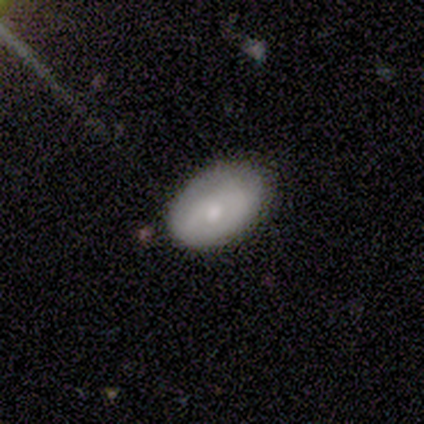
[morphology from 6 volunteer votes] A smooth galaxy with no disk features (67%) that is round (50%, tied with in between). Merging: none (33%, tied with minor disturbance).